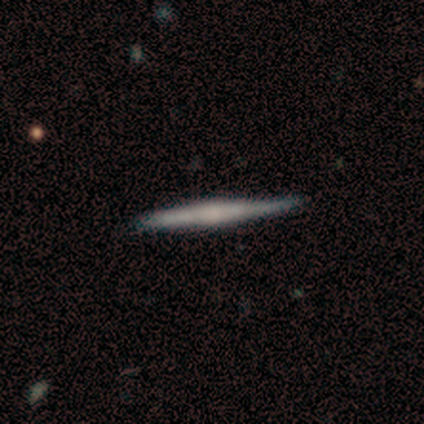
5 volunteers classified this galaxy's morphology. smooth-or-featured: smooth: 60% | featured or disk: 40% | star or artifact: 0%
  how-rounded: cigar-shaped: 100% | round: 0% | in between: 0%
  merging: minor disturbance: 60% | none: 40% | major disturbance: 0% | merger: 0%